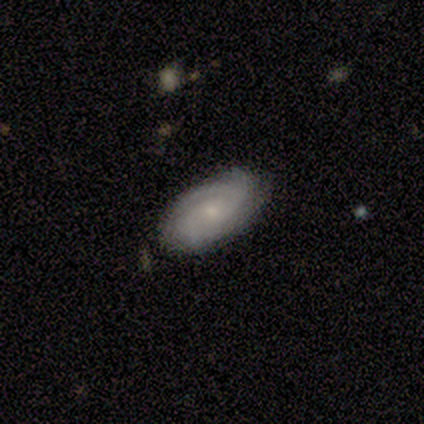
Smooth or featured? featured or disk (100%)
Edge-on disk? no (100%)
Bar? no (60%)
Spiral arms? yes (100%)
Spiral winding? medium (80%)
Spiral arm count? 2 (80%)
Bulge size? small (80%)
Merging? none (80%)